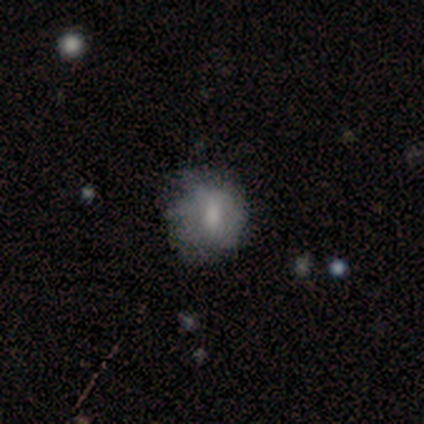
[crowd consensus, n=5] smooth-or-featured: featured or disk: 60% | smooth: 40% | star or artifact: 0%
  disk-edge-on: no: 100% | yes: 0%
    bar: strong: 33% (tied) | weak: 33% (tied) | no: 33% (tied)
    has-spiral-arms: no: 67% | yes: 33%
    bulge-size: moderate: 67% | none: 33% | dominant: 0% | large: 0% | small: 0%
  merging: none: 80% | major disturbance: 20% | minor disturbance: 0% | merger: 0%